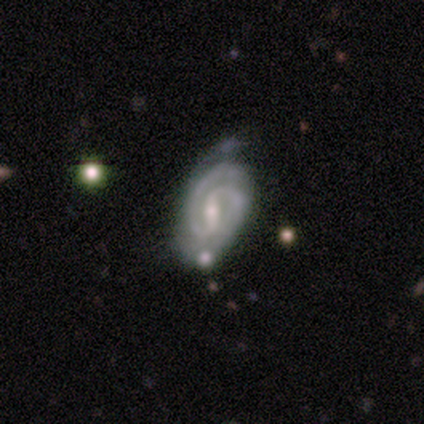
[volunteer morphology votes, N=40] featured or disk 92%, star or artifact 8%, smooth 0%. Down the decision tree: edge-on disk — no (100%); bar — strong (49%); spiral arms — yes (97%); spiral arm count — 2 (86%); spiral winding — tight (58%); bulge size — small (65%); merging — none (57%).